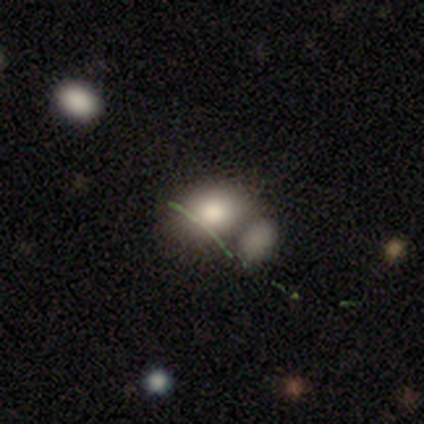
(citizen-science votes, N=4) Volunteers were most divided on "how rounded": in between: 67%, round: 33%, cigar-shaped: 0%. More confident: smooth or featured — smooth (75%); merging — merger (75%).